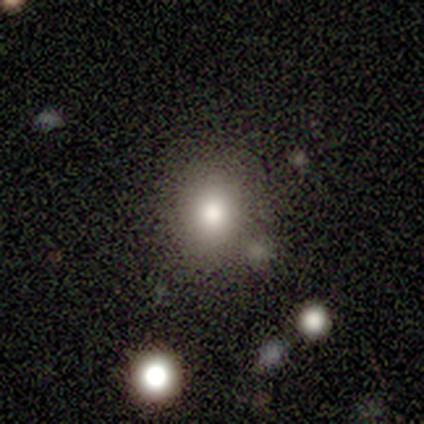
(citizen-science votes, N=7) This appears to be a smooth galaxy with no disk features (100%) that is round (71%). Merging: none (71%).